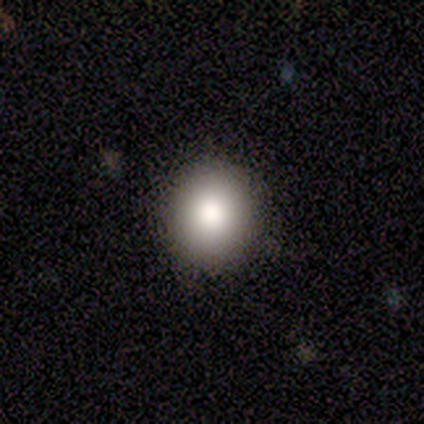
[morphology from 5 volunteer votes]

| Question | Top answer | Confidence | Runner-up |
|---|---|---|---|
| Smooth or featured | smooth | 100% | — |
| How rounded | round | 100% | — |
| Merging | none | 80% | minor disturbance (20%) |